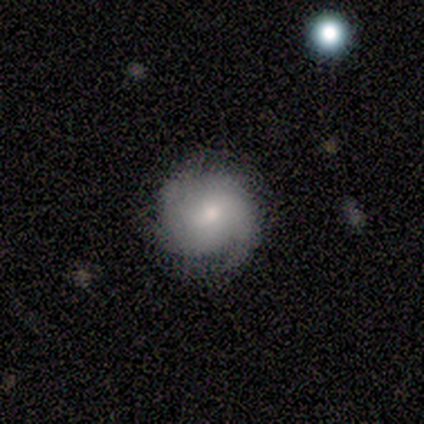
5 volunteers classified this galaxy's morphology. featured or disk 80%, smooth 20%, star or artifact 0%. Down the decision tree: edge-on disk — no (100%); bar — weak (50%, tied with no); spiral arms — yes (100%); spiral arm count — 2 (50%); spiral winding — loose (50%); bulge size — moderate (50%); merging — minor disturbance (60%).